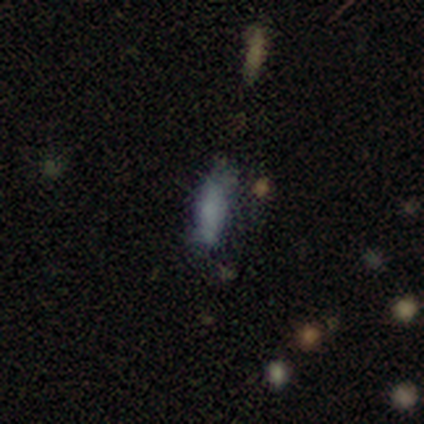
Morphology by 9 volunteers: Smooth or featured: smooth — 67% (star or artifact — 22%)
How rounded: cigar-shaped — 67% (in between — 33%)
Merging: minor disturbance — 57% (none — 43%)